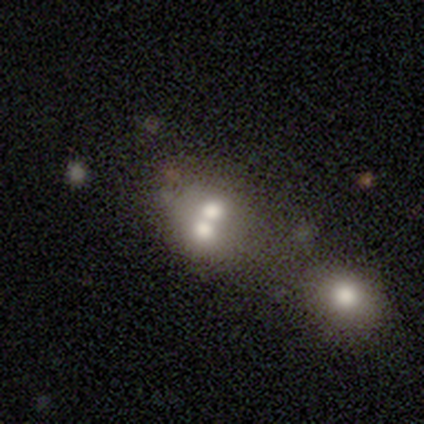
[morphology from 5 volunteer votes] This appears to be a smooth galaxy with no disk features (80%) that is round (75%). Merging: merger (100%).